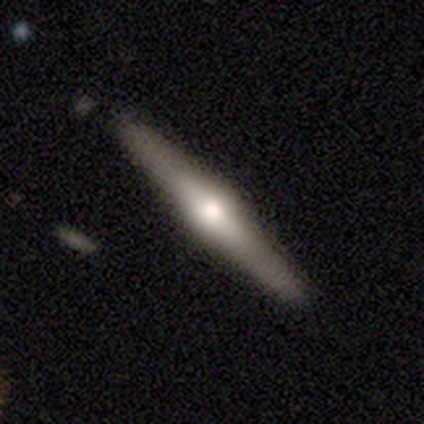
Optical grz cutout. It shows a featured or disk galaxy (100%) viewed edge-on (100%) with a rounded central bulge (100%). Merging: none (100%).